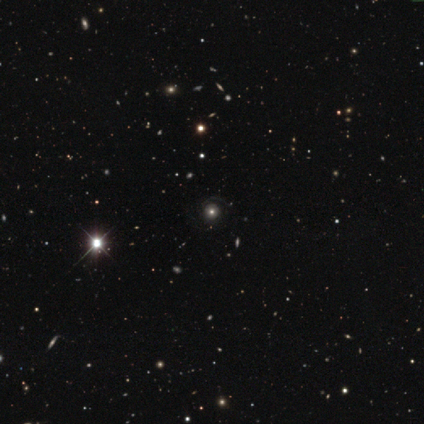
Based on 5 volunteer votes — Smooth or featured?
  - star or artifact: 80% *
  - smooth: 20%
  - featured or disk: 0%